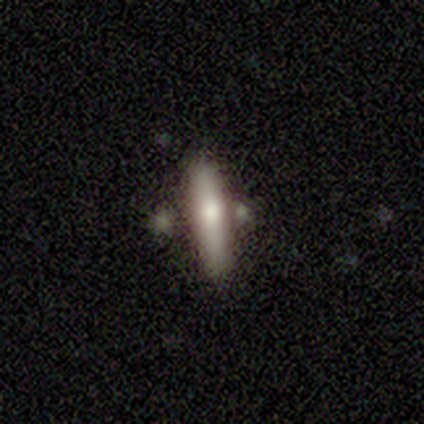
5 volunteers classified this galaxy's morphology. Volunteers were most divided on "smooth or featured": smooth: 60%, featured or disk: 40%, star or artifact: 0%. More confident: how rounded — cigar-shaped (67%); merging — none (60%).